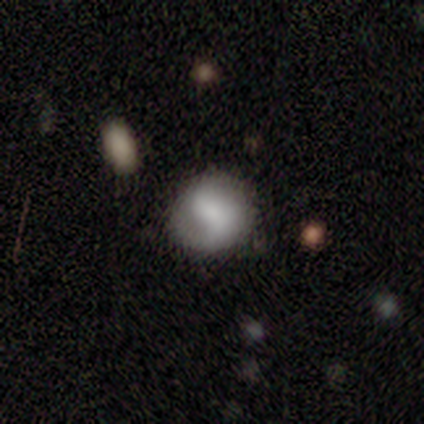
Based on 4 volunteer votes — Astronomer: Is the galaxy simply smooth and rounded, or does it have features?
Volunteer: featured or disk — 75%.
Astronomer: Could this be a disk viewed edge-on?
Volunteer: no — 100%.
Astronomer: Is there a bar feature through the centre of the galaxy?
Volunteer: no — 67%.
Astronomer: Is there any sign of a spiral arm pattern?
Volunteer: yes — 100%.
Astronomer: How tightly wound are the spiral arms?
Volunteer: loose — 67%.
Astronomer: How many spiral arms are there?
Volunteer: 1 — 33%, tied with 2 and can't tell at 33%.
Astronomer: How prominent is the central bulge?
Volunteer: none — 67%.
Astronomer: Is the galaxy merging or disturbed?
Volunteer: none — 50%.